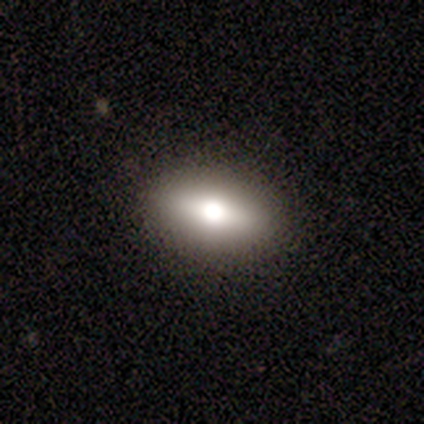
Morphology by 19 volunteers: Smooth or featured? smooth (53%)
How rounded? in between (100%)
Merging? none (100%)